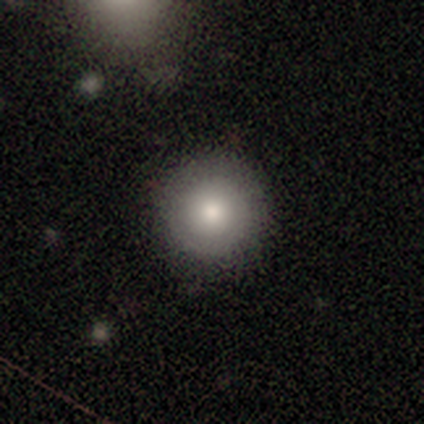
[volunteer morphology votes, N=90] Q: Smooth or featured?
A: smooth (73%); runner-up: featured or disk (19%)
Q: How rounded?
A: round (100%)
Q: Merging?
A: none (93%); runner-up: minor disturbance (6%)